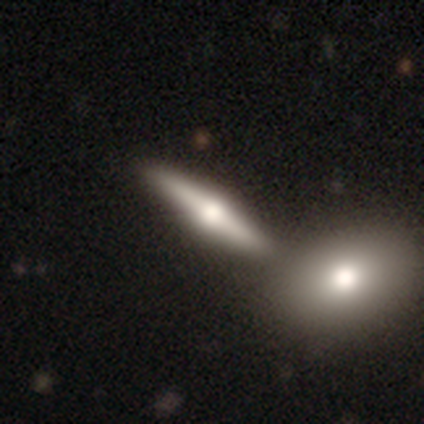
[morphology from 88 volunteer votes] smooth_or_featured: featured or disk (p=0.69) [alt: smooth p=0.26]
disk_edge_on: yes (p=0.98) [alt: no p=0.02]
edge_on_bulge: rounded (p=0.95) [alt: boxy p=0.05]
merging: none (p=0.68) [alt: merger p=0.21]